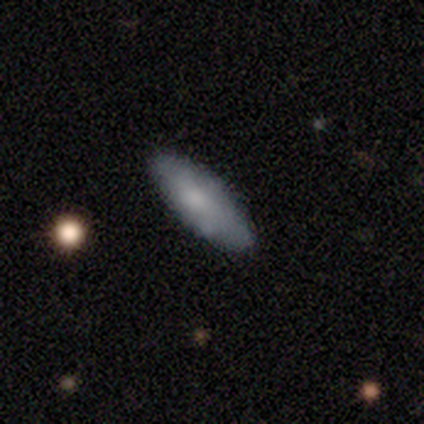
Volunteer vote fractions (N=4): Smooth or featured?
  - smooth: 75% *
  - featured or disk: 25%
  - star or artifact: 0%
How rounded?
  - in between: 100% *
  - round: 0%
  - cigar-shaped: 0%
Merging?
  - none: 100% *
  - minor disturbance: 0%
  - major disturbance: 0%
  - merger: 0%